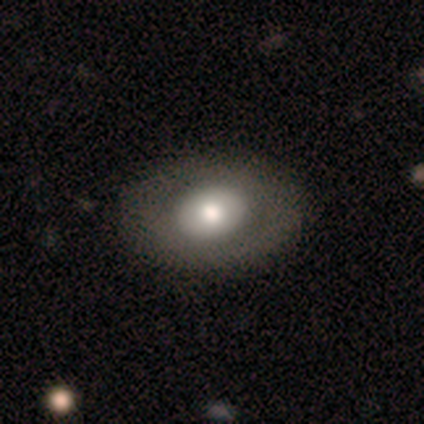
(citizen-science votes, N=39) Smooth or featured?
  - smooth: 56% *
  - featured or disk: 44%
  - star or artifact: 0%
How rounded?
  - in between: 68% *
  - round: 32%
  - cigar-shaped: 0%
Merging?
  - none: 67% *
  - minor disturbance: 5%
  - major disturbance: 0%
  - merger: 0%